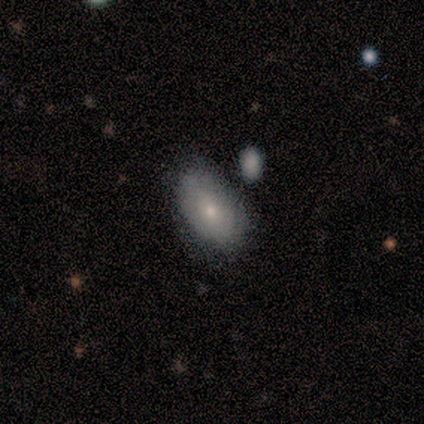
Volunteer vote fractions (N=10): Smooth or featured? 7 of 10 (70%) said smooth. How rounded? 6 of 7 (86%) said in between. Merging? 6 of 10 (60%) said none.